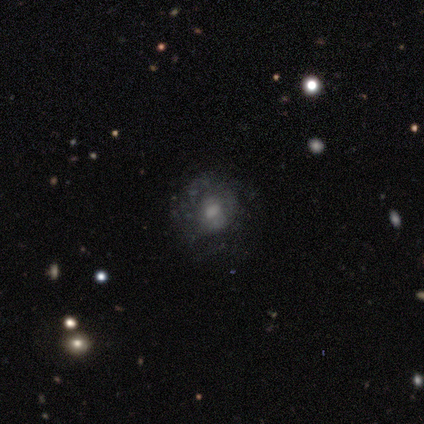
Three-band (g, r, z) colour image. It shows a featured or disk galaxy (53%) with no bar (84%), no spiral arms (63%) and a small central bulge (37%). Merging: none (72%).